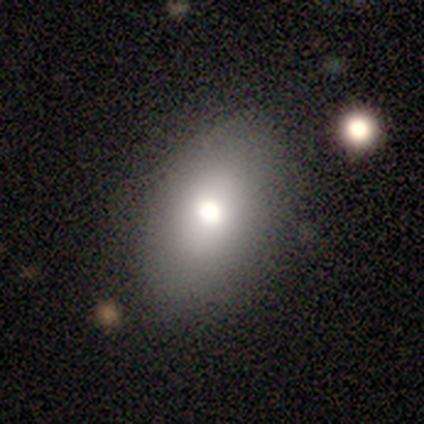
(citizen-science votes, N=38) smooth_or_featured: smooth (p=0.74) [alt: featured or disk p=0.13]
how_rounded: in between (p=0.71) [alt: round p=0.29]
merging: none (p=0.79) [alt: minor disturbance p=0.12]